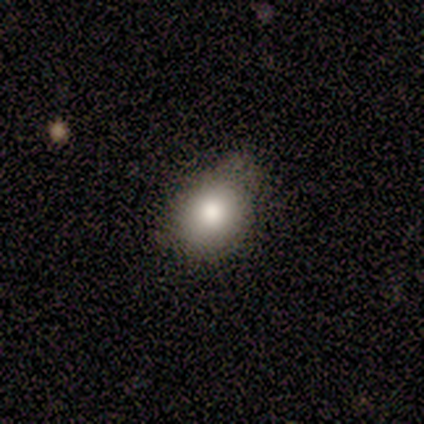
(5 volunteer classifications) Smooth or featured: smooth — 100%
How rounded: round — 60% (in between — 40%)
Merging: minor disturbance — 80% (major disturbance — 20%)